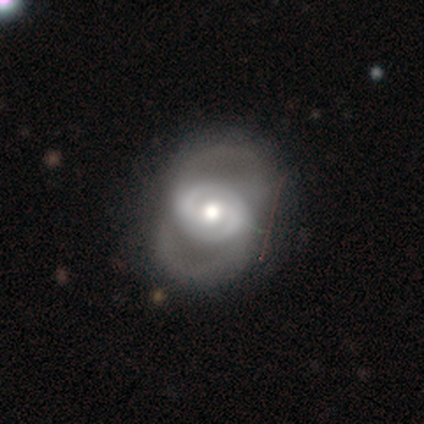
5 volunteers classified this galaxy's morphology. A featured or disk galaxy (80%) with a weak bar (50%), 2 (100%) medium (100%) spiral arms (50%, tied with no) and a moderate central bulge (50%).

Vote fractions:
- Smooth or featured? featured or disk: 80% / smooth: 20% / star or artifact: 0%
- Edge-on disk? no: 100% / yes: 0%
- Bar? weak: 50% / strong: 25% / no: 25%
- Spiral arms? yes: 50% (tied) / no: 50% (tied)
- Spiral winding? medium: 100% / tight: 0% / loose: 0%
- Spiral arm count? 2: 100% / 1: 0% / 3: 0% / 4: 0% / more than 4: 0% / can't tell: 0%
- Bulge size? moderate: 50% / large: 25% / small: 25% / dominant: 0% / none: 0%
- Merging? none: 40% (tied) / major disturbance: 40% (tied) / minor disturbance: 20% / merger: 0%